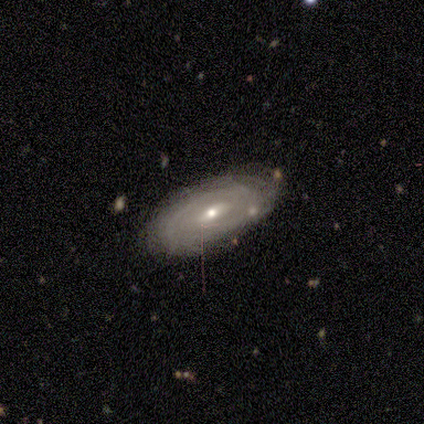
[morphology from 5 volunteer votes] This appears to be a featured or disk galaxy (80%) with a strong bar (33%, tied with weak and no), tight (67%) spiral arms (100%) and a small central bulge (67%). Merging: none (75%).